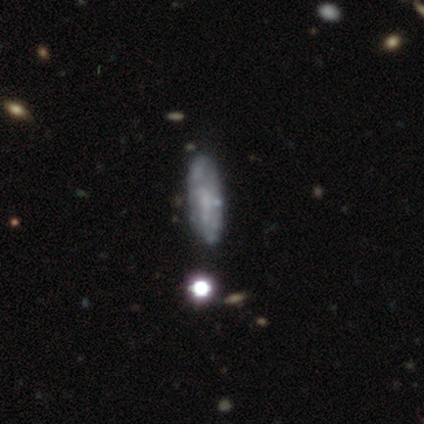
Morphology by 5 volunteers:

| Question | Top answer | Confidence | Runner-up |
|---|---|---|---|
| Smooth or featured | smooth | 60% | featured or disk (40%) |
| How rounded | in between | 100% | — |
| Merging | none | 100% | — |